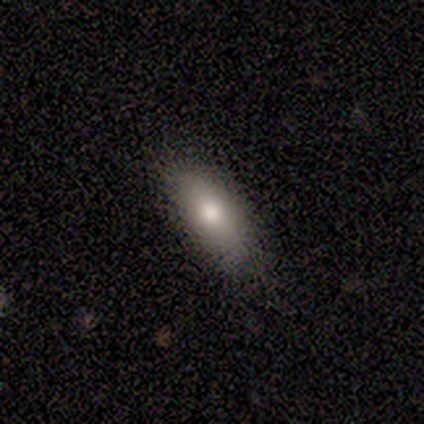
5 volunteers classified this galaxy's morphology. Smooth or featured? smooth (80%)
How rounded? in between (100%)
Merging? none (100%)